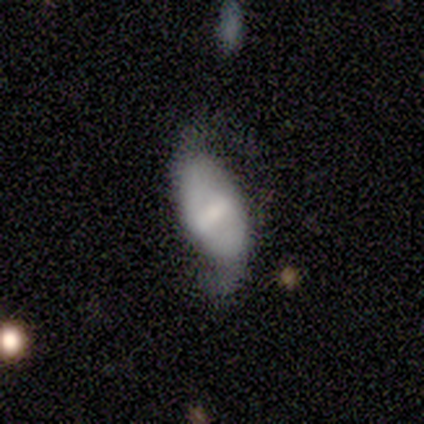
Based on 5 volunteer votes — smooth-or-featured: featured or disk: 40% (tied) | star or artifact: 40% (tied) | smooth: 20%
  disk-edge-on: no: 100% | yes: 0%
    bar: strong: 50% (tied) | weak: 50% (tied) | no: 0%
    has-spiral-arms: yes: 100% | no: 0%
      spiral-winding: loose: 100% | tight: 0% | medium: 0%
      spiral-arm-count: 2: 100% | 1: 0% | 3: 0% | 4: 0% | more than 4: 0% | can't tell: 0%
    bulge-size: small: 50% (tied) | none: 50% (tied) | dominant: 0% | large: 0% | moderate: 0%
  merging: minor disturbance: 67% | major disturbance: 33% | none: 0% | merger: 0%